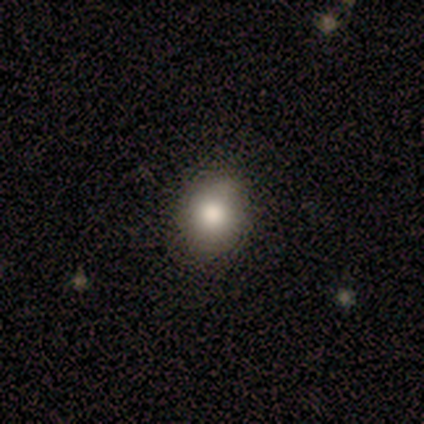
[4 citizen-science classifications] Smooth or featured? smooth (75%)
How rounded? in between (100%)
Merging? none (67%)